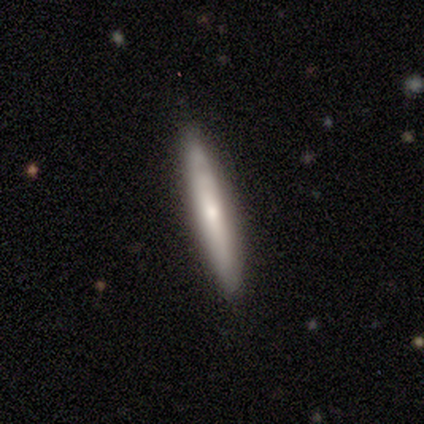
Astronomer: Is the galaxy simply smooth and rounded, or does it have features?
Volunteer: smooth — 40%, tied with featured or disk at 40%.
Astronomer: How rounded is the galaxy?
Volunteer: cigar-shaped — 100%.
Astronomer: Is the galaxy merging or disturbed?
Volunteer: none — 100%.